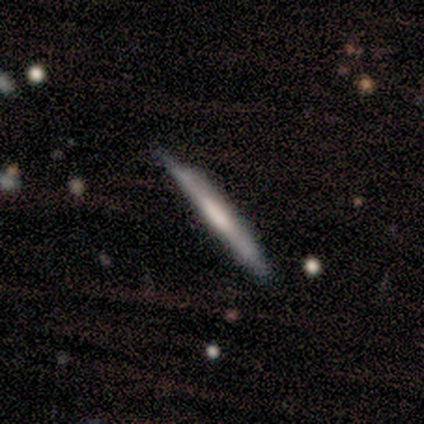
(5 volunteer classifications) Smooth or featured? featured or disk (100%)
Edge-on disk? yes (80%)
Edge-on bulge? none (75%)
Merging? none (60%)